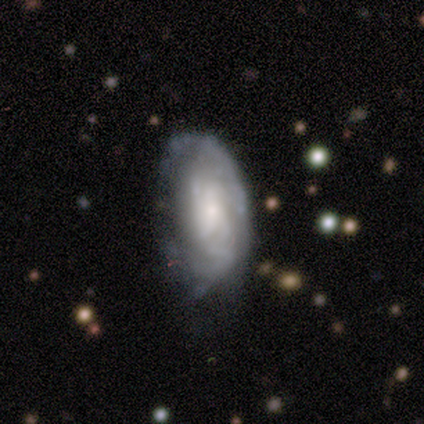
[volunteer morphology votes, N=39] Smooth or featured? 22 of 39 (56%) said featured or disk. Edge-on disk? 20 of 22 (91%) said no. Bar? 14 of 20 (70%) said no. Spiral arms? 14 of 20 (70%) said yes. Spiral winding? 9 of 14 (64%) said tight. Spiral arm count? 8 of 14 (57%) said can't tell. Bulge size? 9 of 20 (45%) said small. Merging? 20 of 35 (57%) said none.